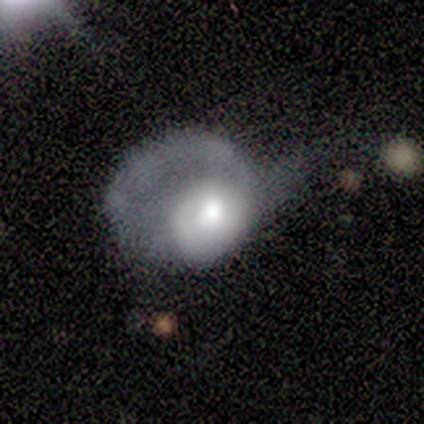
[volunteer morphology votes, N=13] A featured or disk galaxy (62%) with no bar (100%), 1 (100%) loose (50%) spiral arms (50%, tied with no) and a moderate central bulge (62%). Merging: major disturbance (92%).